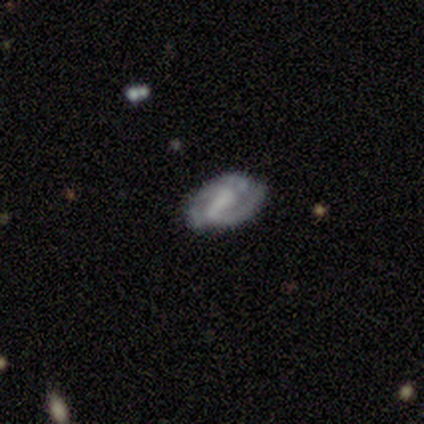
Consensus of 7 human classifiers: This is clearly a featured or disk galaxy (100%). It is clearly not viewed edge-on (100%). Bar: possibly strong (57%). Spiral arm pattern: clearly yes (100%). Spiral arm count: likely 2 (71%). Spiral winding: marginally tight (43%). Central bulge: marginally moderate (43%). Merging: likely none (71%).